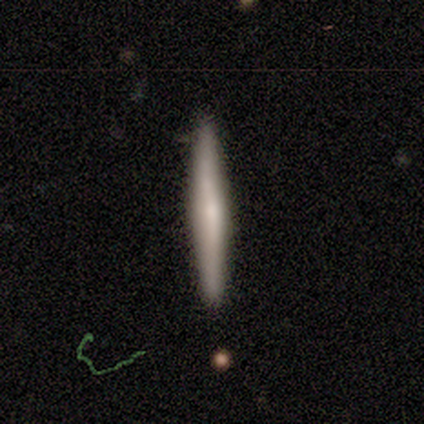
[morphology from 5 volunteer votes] This appears to be a smooth galaxy with no disk features (100%) that is cigar-shaped (100%). Merging: none (80%).